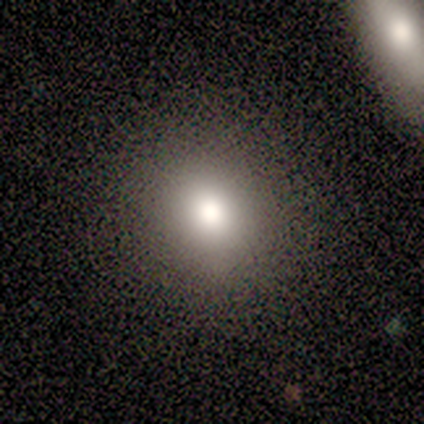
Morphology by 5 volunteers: type=smooth (60%); roundness=round (67%); merging=none (100%).